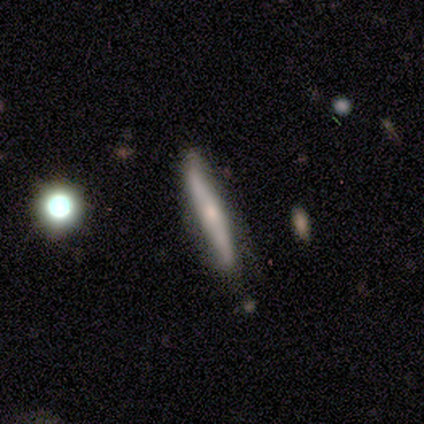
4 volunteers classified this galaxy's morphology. Overall: smooth (50%, tied with featured or disk). How rounded: cigar-shaped (100%). Merging: none (100%).